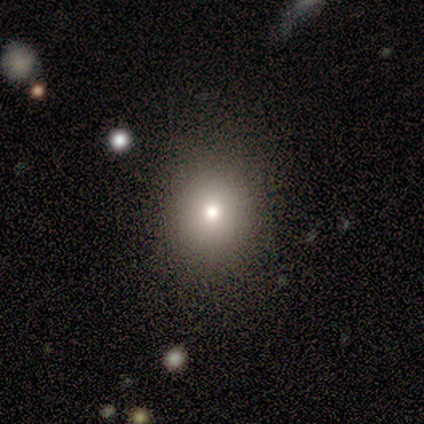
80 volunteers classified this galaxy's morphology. Smooth or featured: smooth — 78% (featured or disk — 12%)
How rounded: round — 79% (in between — 21%)
Merging: none — 47% (merger — 4%)